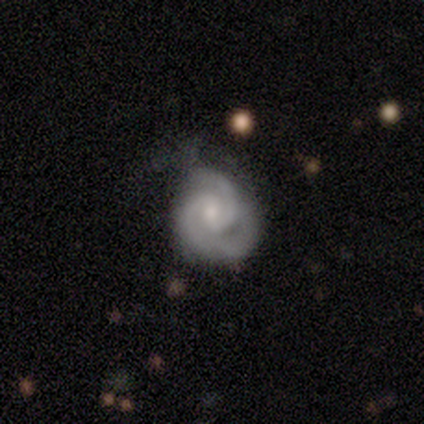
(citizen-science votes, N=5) Q: Smooth or featured?
A: featured or disk (100%)
Q: Edge-on disk?
A: no (80%); runner-up: yes (20%)
Q: Bar?
A: weak (75%); runner-up: no (25%)
Q: Spiral arms?
A: yes (100%)
Q: Spiral winding?
A: tight (75%); runner-up: medium (25%)
Q: Spiral arm count?
A: 2 (100%)
Q: Bulge size?
A: moderate (75%); runner-up: small (25%)
Q: Merging?
A: none (60%); runner-up: major disturbance (40%)